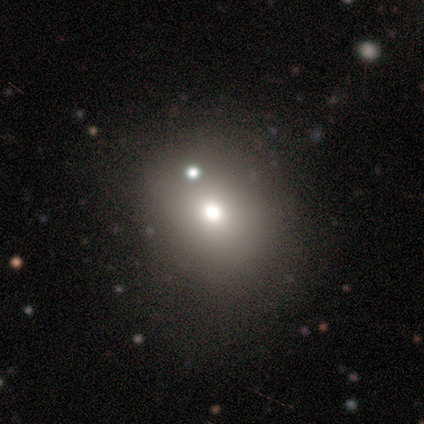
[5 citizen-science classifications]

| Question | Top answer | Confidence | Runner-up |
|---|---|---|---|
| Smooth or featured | smooth | 100% | — |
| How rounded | round | 60% | in between (40%) |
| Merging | none | 80% | major disturbance (20%) |